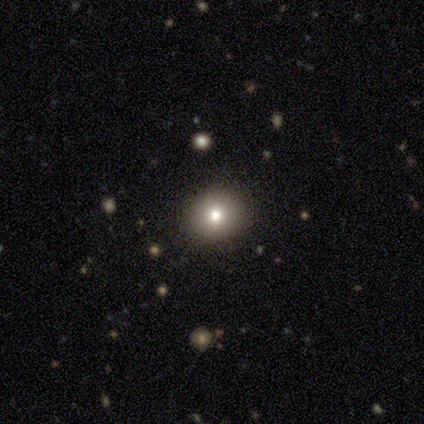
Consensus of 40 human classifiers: A smooth galaxy with no disk features (72%) that is round (90%).

Vote fractions:
- Smooth or featured? smooth: 72% / featured or disk: 20% / star or artifact: 8%
- How rounded? round: 90% / in between: 10% / cigar-shaped: 0%
- Merging? none: 95% / minor disturbance: 3% / major disturbance: 3% / merger: 0%